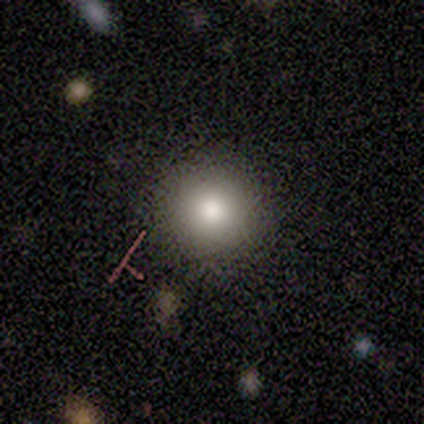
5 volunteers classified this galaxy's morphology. A smooth galaxy with no disk features (100%) that is round (100%).

Vote fractions:
- Smooth or featured? smooth: 100% / featured or disk: 0% / star or artifact: 0%
- How rounded? round: 100% / in between: 0% / cigar-shaped: 0%
- Merging? none: 100% / minor disturbance: 0% / major disturbance: 0% / merger: 0%